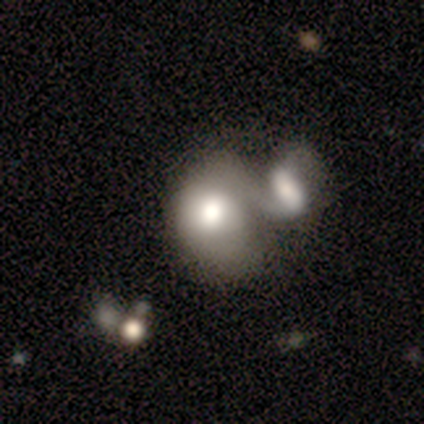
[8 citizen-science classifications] Smooth or featured: smooth — 88% (featured or disk — 12%)
How rounded: in between — 57% (round — 43%)
Merging: merger — 88% (minor disturbance — 12%)